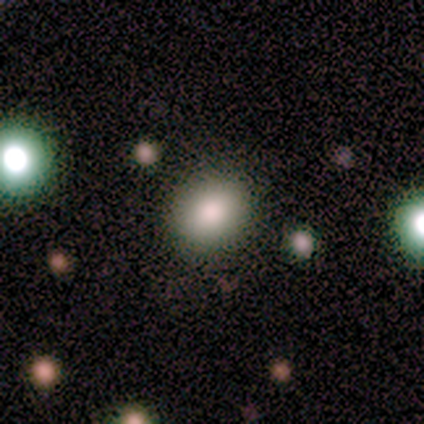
Smooth or featured? 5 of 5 (100%) said smooth. How rounded? 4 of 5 (80%) said round. Merging? 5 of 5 (100%) said none.